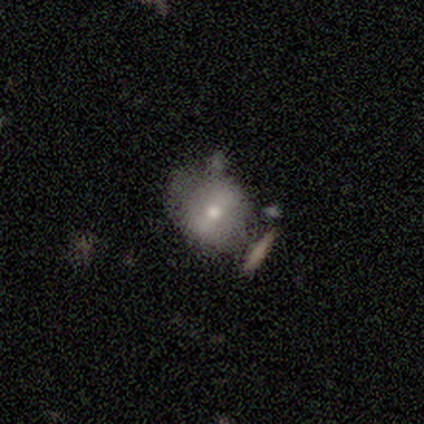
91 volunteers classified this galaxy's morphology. smooth 59%, featured or disk 31%, star or artifact 10%. Down the decision tree: how rounded — round (65%); merging — none (35%, tied with minor disturbance).